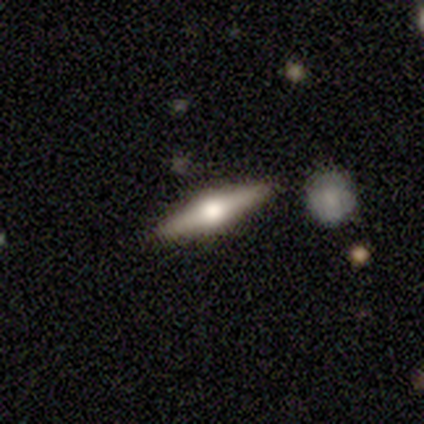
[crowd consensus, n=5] This is likely a featured or disk galaxy (60%). It is clearly viewed edge-on (100%). Edge-on bulge: clearly rounded (100%). Merging: marginally none (40%, tied with merger).